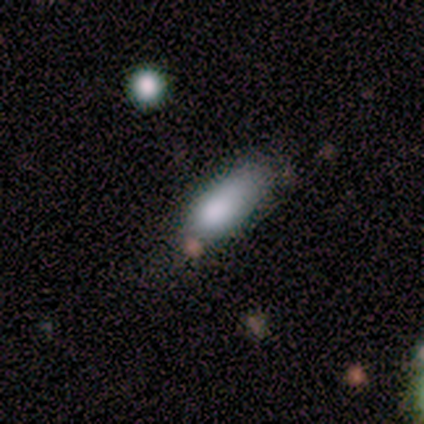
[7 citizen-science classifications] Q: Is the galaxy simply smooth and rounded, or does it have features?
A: smooth — 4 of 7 (57%).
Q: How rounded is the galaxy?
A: in between — 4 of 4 (100%).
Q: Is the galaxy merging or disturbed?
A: none — 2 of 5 (40%, tied with minor disturbance).